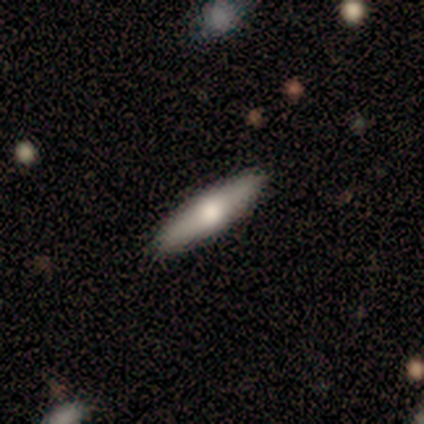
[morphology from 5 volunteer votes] A featured or disk galaxy (80%) viewed edge-on (75%) with a rounded central bulge (100%).

Vote fractions:
- Smooth or featured? featured or disk: 80% / smooth: 20% / star or artifact: 0%
- Edge-on disk? yes: 75% / no: 25%
- Edge-on bulge? rounded: 100% / boxy: 0% / none: 0%
- Merging? none: 100% / minor disturbance: 0% / major disturbance: 0% / merger: 0%